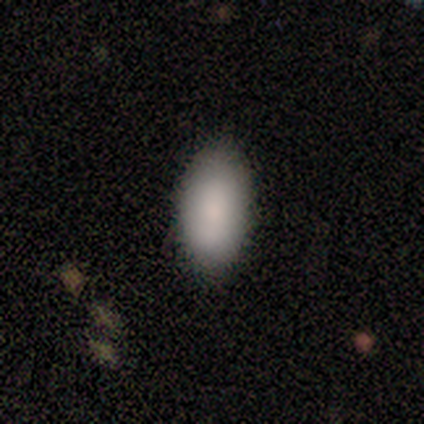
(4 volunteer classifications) Consensus on every question: smooth or featured — smooth (100%); how rounded — in between (100%); merging — none (100%).